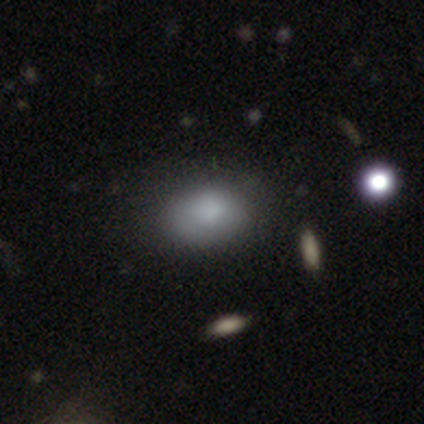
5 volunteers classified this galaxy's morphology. Smooth or featured? 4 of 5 (80%) said smooth. How rounded? 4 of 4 (100%) said in between. Merging? 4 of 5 (80%) said none.